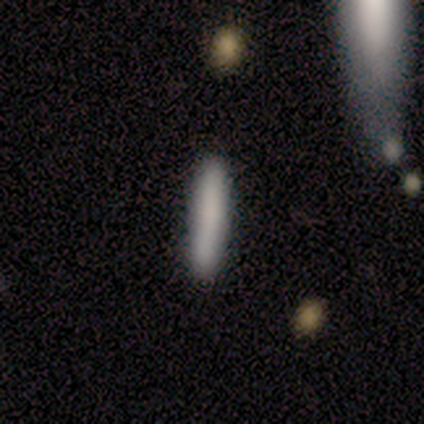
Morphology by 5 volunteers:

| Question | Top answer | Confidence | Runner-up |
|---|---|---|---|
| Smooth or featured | smooth | 80% | featured or disk (20%) |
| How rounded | cigar-shaped | 100% | — |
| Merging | none | 100% | — |